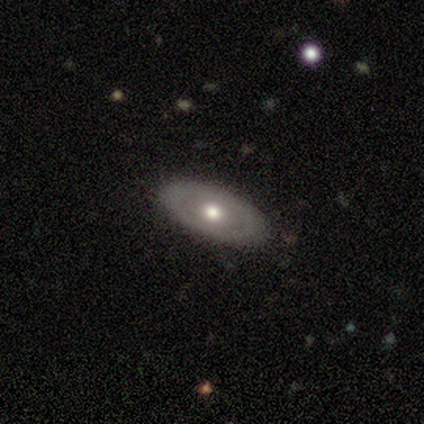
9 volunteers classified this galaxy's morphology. smooth-or-featured: smooth: 56% | featured or disk: 44% | star or artifact: 0%
  how-rounded: in between: 100% | round: 0% | cigar-shaped: 0%
  merging: none: 89% | minor disturbance: 11% | major disturbance: 0% | merger: 0%